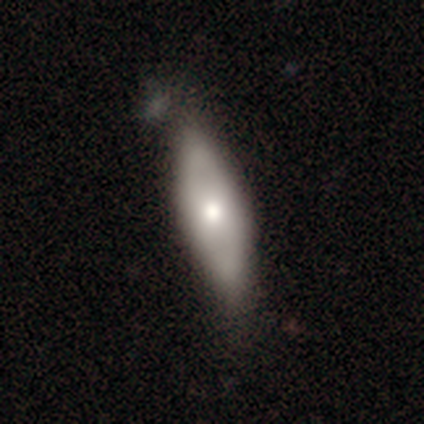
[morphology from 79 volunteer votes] Smooth or featured? 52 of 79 (66%) said smooth. How rounded? 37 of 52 (71%) said in between. Merging? 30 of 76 (39%) said none.